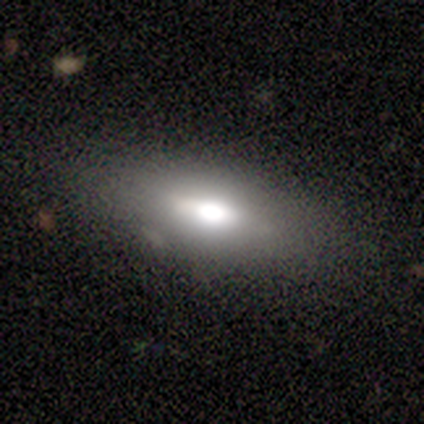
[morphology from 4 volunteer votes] A smooth galaxy with no disk features (75%) that is in between round and cigar-shaped (100%). Merging: none (75%).